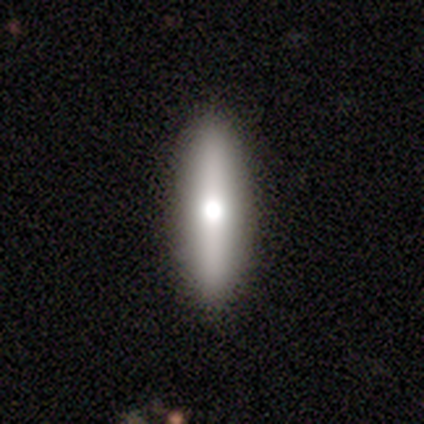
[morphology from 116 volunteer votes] Smooth or featured: smooth — 60% (featured or disk — 36%)
How rounded: cigar-shaped — 76% (in between — 23%)
Merging: none — 71% (minor disturbance — 3%)